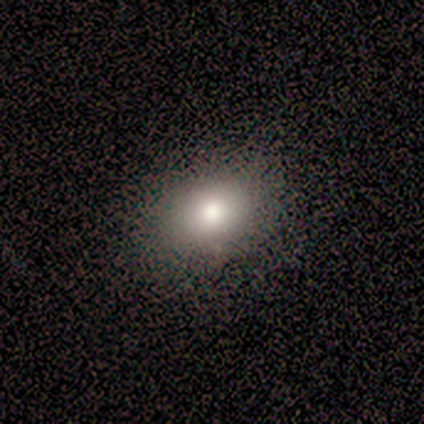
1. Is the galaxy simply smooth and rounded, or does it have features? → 100% smooth, 0% featured or disk, 0% star or artifact.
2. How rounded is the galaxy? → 75% in between, 25% round, 0% cigar-shaped.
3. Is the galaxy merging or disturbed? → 100% none, 0% minor disturbance, 0% major disturbance, 0% merger.